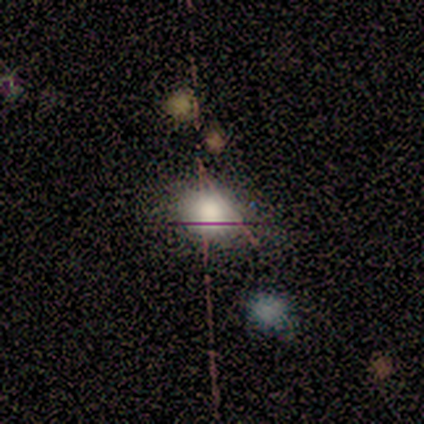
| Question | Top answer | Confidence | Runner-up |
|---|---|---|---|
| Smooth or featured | smooth | 100% | — |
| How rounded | in between | 80% | round (20%) |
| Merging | none | 80% | minor disturbance (20%) |